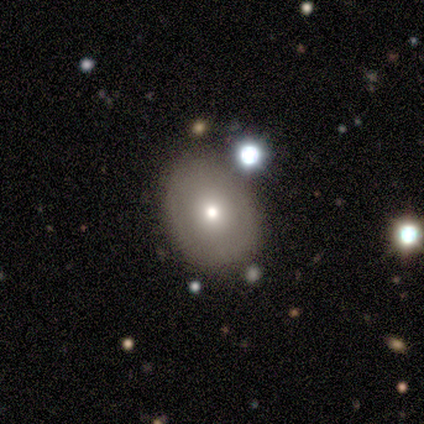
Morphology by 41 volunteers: A smooth galaxy with no disk features (71%) that is in between round and cigar-shaped (66%).

Vote fractions:
- Smooth or featured? smooth: 71% / featured or disk: 22% / star or artifact: 7%
- How rounded? in between: 66% / round: 34% / cigar-shaped: 0%
- Merging? none: 79% / minor disturbance: 18% / merger: 3% / major disturbance: 0%